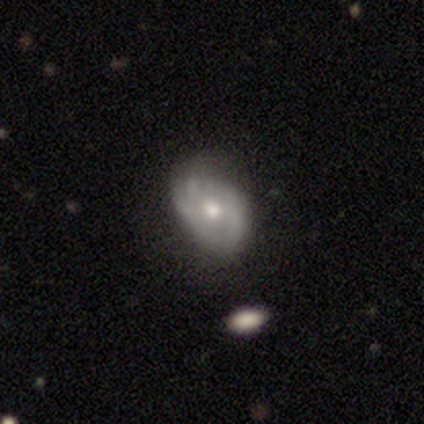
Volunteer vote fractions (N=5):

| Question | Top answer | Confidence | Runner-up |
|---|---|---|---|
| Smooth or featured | featured or disk | 60% | smooth (40%) |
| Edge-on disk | no | 100% | — |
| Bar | no | 100% | — |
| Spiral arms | yes | 67% | no (33%) |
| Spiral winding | tight | 50% | tied: loose (50%) |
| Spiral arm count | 3 | 50% | tied: can't tell (50%) |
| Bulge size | moderate | 100% | — |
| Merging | none | 80% | major disturbance (20%) |